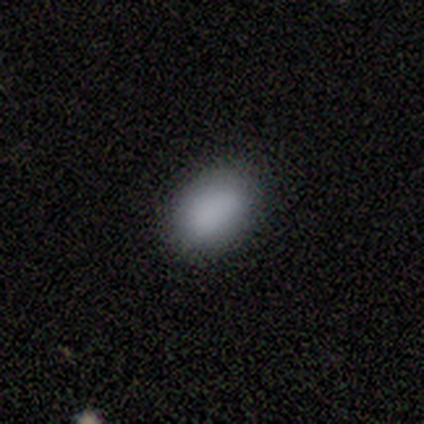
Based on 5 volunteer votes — smooth 100%, featured or disk 0%, star or artifact 0%. Down the decision tree: how rounded — in between (80%); merging — none (100%).